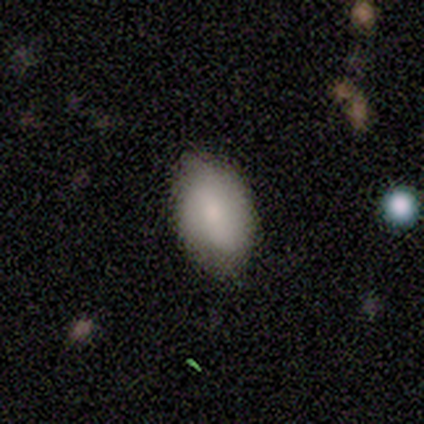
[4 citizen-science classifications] Morphology: type=featured or disk (50%); edge-on=no (100%); bar=strong (50%, tied with weak); spiral arms=no (100%); bulge=moderate (50%, tied with small); merging=none (100%).